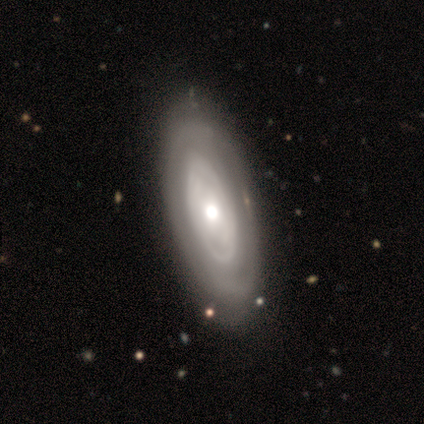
Q: Smooth or featured?
A: featured or disk (60%); runner-up: smooth (40%)
Q: Edge-on disk?
A: no (67%); runner-up: yes (33%)
Q: Bar?
A: no (100%)
Q: Spiral arms?
A: no (100%)
Q: Bulge size?
A: moderate (100%)
Q: Merging?
A: none (80%); runner-up: major disturbance (20%)